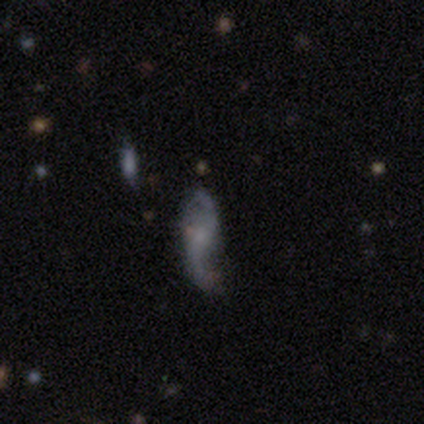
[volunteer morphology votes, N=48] featured or disk 79%, smooth 12%, star or artifact 8%. Down the decision tree: edge-on disk — no (95%); bar — no (78%); spiral arms — yes (83%); spiral arm count — 2 (97%); spiral winding — loose (80%); bulge size — small (53%); merging — none (39%).